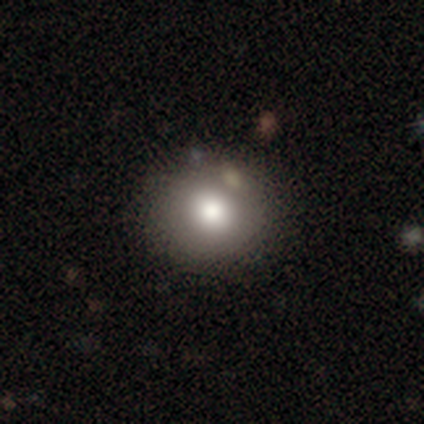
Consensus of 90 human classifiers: Smooth or featured? smooth (77%)
How rounded? round (91%)
Merging? none (85%)